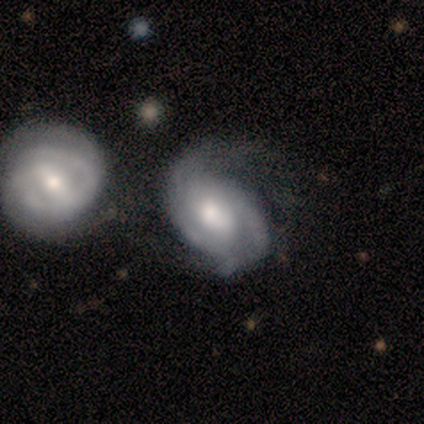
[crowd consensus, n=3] A featured or disk galaxy (67%) with no bar (100%), 2 (100%) tight (100%) spiral arms (100%) and a moderate central bulge (100%). Merging: merger (67%).